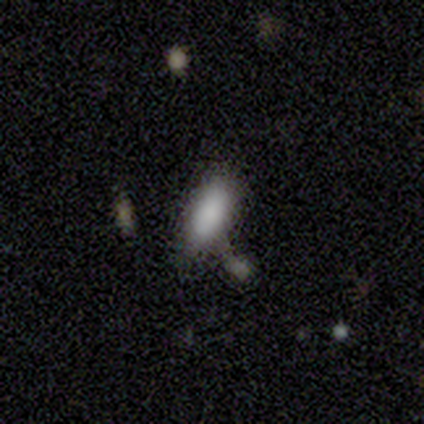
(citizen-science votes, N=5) Volunteers were most divided on "merging" (2-way tie): minor disturbance: 40%, merger: 40%, none: 20%, major disturbance: 0%. More confident: how rounded — in between (100%); smooth or featured — smooth (60%).